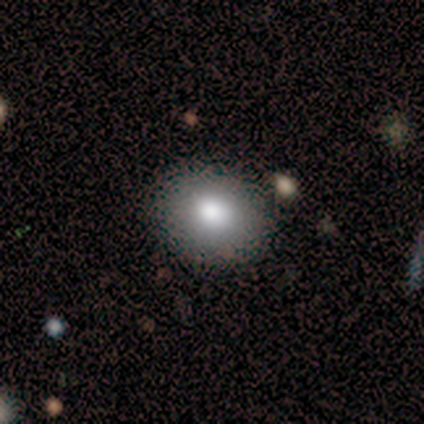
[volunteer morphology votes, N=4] This is likely a smooth galaxy (75%). How rounded: clearly in between (100%). Merging: likely none (75%).